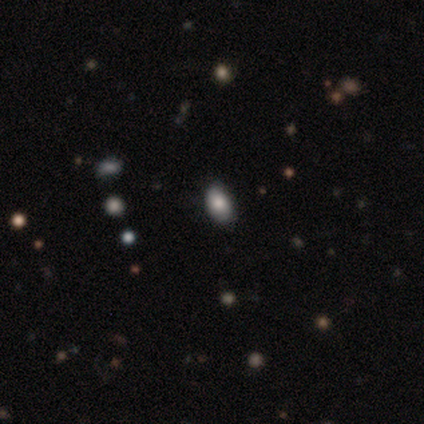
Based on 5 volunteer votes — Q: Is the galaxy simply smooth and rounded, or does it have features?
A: smooth — 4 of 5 (80%).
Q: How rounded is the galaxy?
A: in between — 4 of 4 (100%).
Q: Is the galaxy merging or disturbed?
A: none — 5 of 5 (100%).